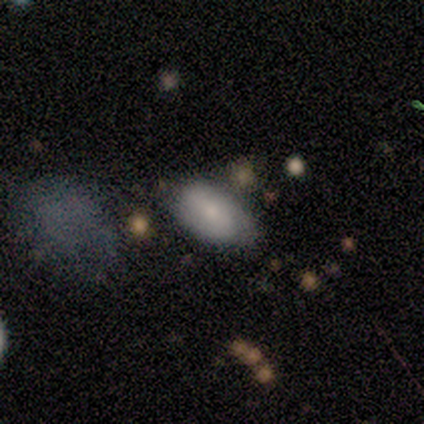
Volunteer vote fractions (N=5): A smooth galaxy with no disk features (60%) that is in between round and cigar-shaped (67%).

Vote fractions:
- Smooth or featured? smooth: 60% / featured or disk: 40% / star or artifact: 0%
- How rounded? in between: 67% / round: 33% / cigar-shaped: 0%
- Merging? none: 80% / minor disturbance: 20% / major disturbance: 0% / merger: 0%